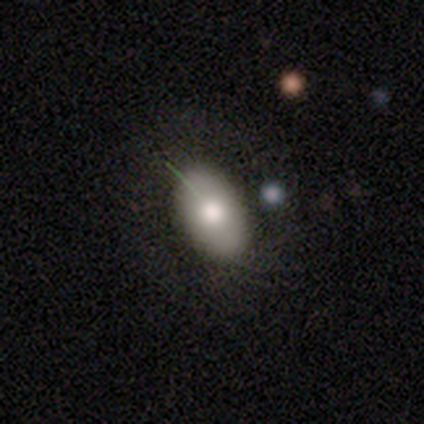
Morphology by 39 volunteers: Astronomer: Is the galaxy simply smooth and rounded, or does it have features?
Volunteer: smooth — 77%.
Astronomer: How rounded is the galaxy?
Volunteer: in between — 97%.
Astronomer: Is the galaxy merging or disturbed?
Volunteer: none — 51%.